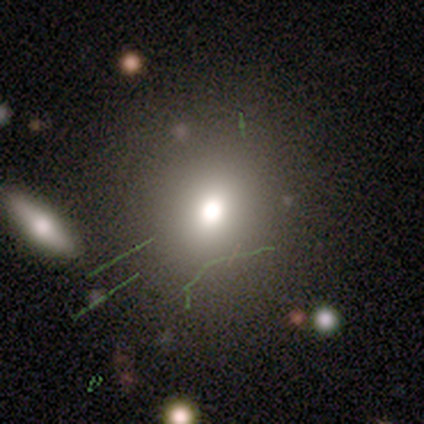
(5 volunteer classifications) Q: Smooth or featured?
A: smooth (60%); runner-up: star or artifact (40%)
Q: How rounded?
A: round (100%)
Q: Merging?
A: none (67%); runner-up: minor disturbance (33%)